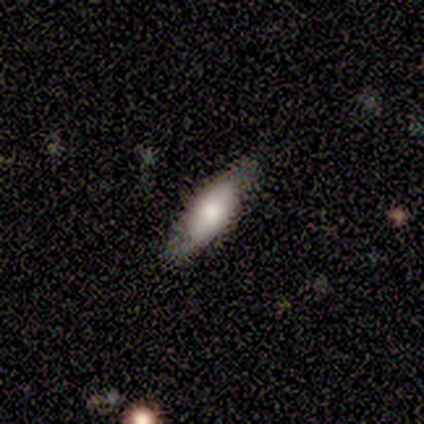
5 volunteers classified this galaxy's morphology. Smooth or featured: smooth — 100%
How rounded: in between — 60% (cigar-shaped — 40%)
Merging: none — 80% (minor disturbance — 20%)